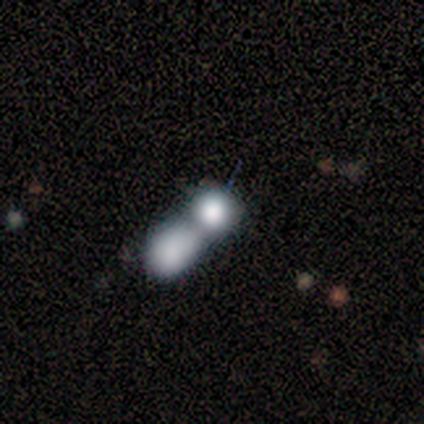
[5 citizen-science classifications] Morphology: type=smooth (80%); roundness=round (50%); merging=merger (80%).